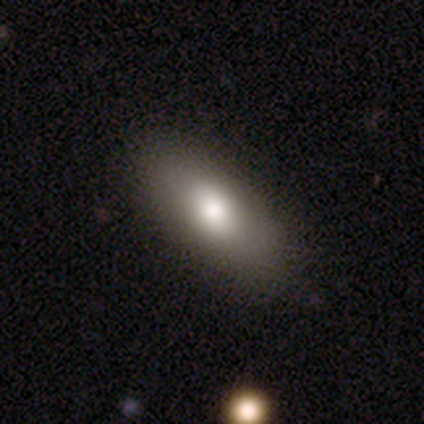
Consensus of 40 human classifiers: Volunteers were most divided on "smooth or featured": smooth: 80%, featured or disk: 12%, star or artifact: 8%. More confident: how rounded — in between (84%); merging — none (73%).